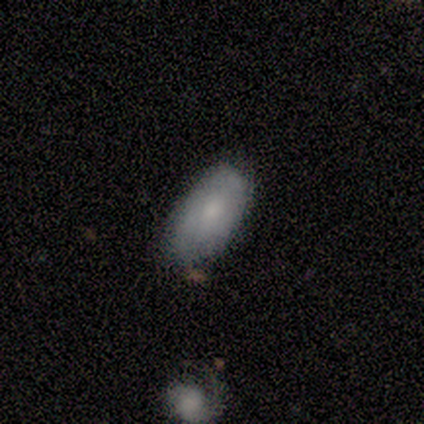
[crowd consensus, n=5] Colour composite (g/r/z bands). It shows a smooth galaxy with no disk features (80%) that is in between round and cigar-shaped (100%). Merging: none (80%).